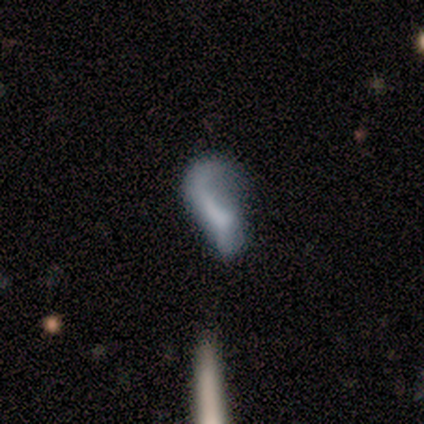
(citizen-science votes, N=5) Q: Smooth or featured?
A: smooth (40%); tied with: featured or disk (40%)
Q: How rounded?
A: in between (100%)
Q: Merging?
A: none (50%); tied with: major disturbance (50%)